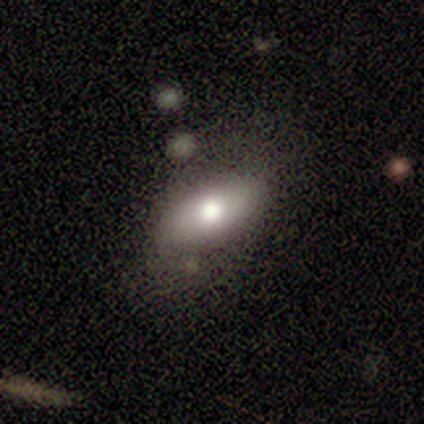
Morphology: type=smooth (62%); roundness=in between (100%); merging=none (62%).